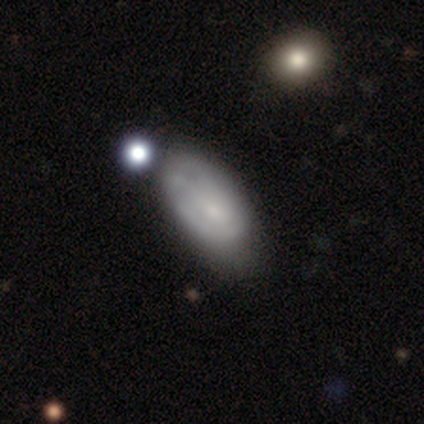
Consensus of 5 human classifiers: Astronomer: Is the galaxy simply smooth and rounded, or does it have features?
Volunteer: smooth — 80%.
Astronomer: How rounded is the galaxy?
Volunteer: in between — 100%.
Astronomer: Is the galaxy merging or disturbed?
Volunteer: none — 60%.